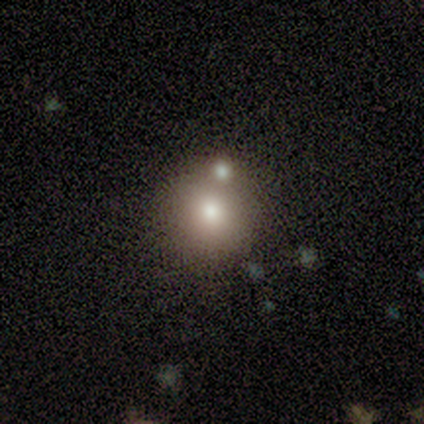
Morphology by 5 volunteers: smooth-or-featured: smooth: 60% | star or artifact: 40% | featured or disk: 0%
  how-rounded: round: 100% | in between: 0% | cigar-shaped: 0%
  merging: none: 67% | minor disturbance: 33% | major disturbance: 0% | merger: 0%